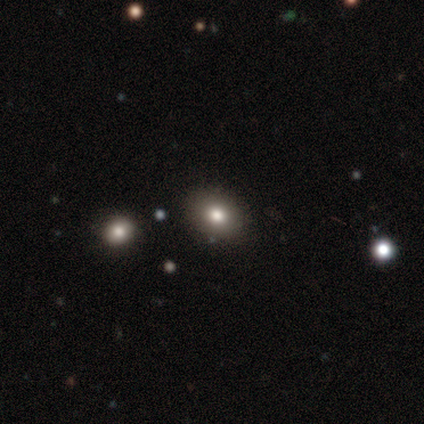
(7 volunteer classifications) Q: Smooth or featured?
A: smooth (71%); runner-up: featured or disk (14%)
Q: How rounded?
A: round (60%); runner-up: in between (40%)
Q: Merging?
A: none (67%); runner-up: minor disturbance (33%)